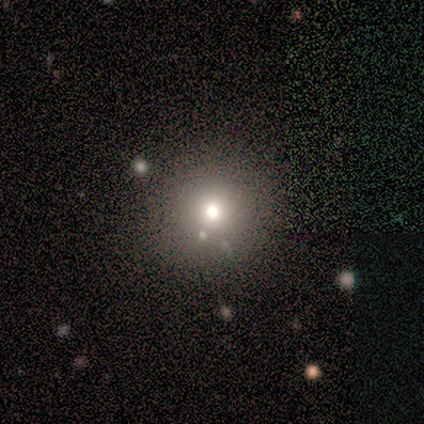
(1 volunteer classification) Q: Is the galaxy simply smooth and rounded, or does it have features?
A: smooth — 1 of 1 (100%).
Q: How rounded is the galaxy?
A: round — 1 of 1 (100%).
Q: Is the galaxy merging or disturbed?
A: minor disturbance — 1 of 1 (100%).